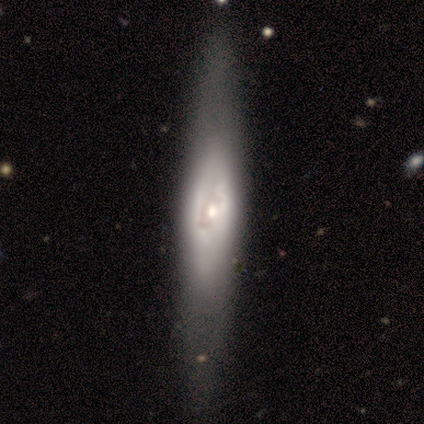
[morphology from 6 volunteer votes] Smooth or featured: featured or disk — 83% (smooth — 17%)
Edge-on disk: yes — 80% (no — 20%)
Edge-on bulge: rounded — 75% (none — 25%)
Merging: none — 50% (major disturbance — 33%)